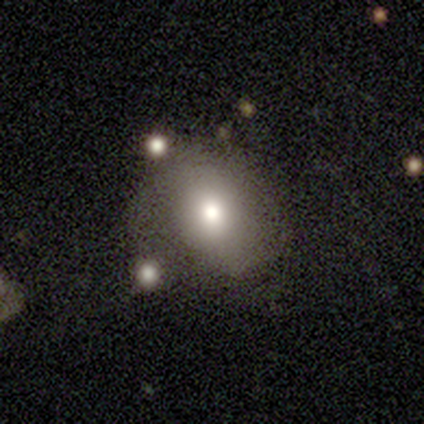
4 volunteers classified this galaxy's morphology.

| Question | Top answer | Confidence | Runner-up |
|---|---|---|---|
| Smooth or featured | smooth | 75% | featured or disk (25%) |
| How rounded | round | 67% | in between (33%) |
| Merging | none | 75% | major disturbance (25%) |